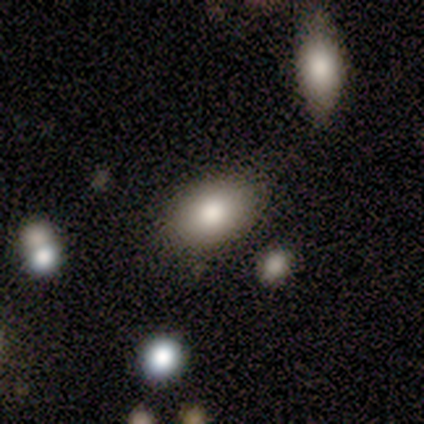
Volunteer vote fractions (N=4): Morphology: type=smooth (75%); roundness=in between (100%); merging=none (100%).